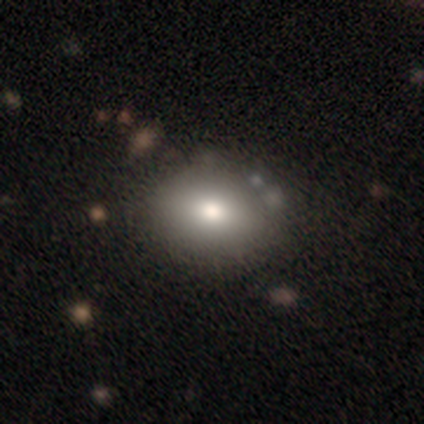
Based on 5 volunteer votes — This is clearly a smooth galaxy (100%). How rounded: likely in between (60%). Merging: clearly none (80%).